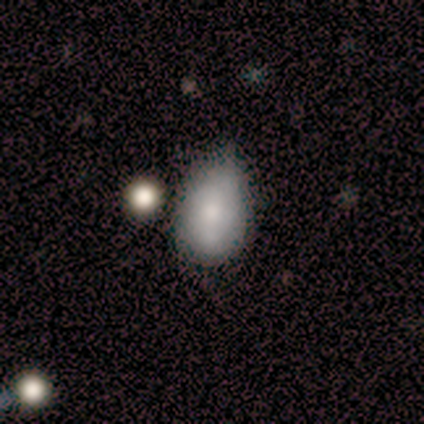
Q: Smooth or featured?
A: smooth (60%); runner-up: featured or disk (40%)
Q: How rounded?
A: in between (67%); runner-up: round (33%)
Q: Merging?
A: minor disturbance (80%); runner-up: none (20%)